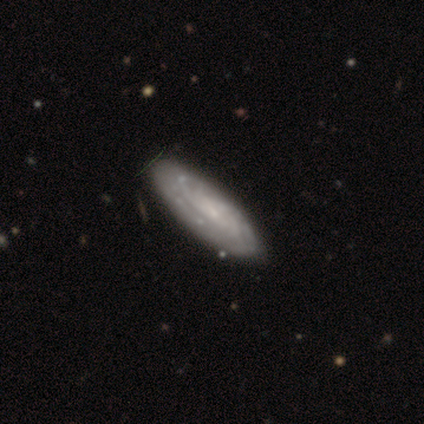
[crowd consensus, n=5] smooth-or-featured: featured or disk: 80% | smooth: 20% | star or artifact: 0%
  disk-edge-on: no: 100% | yes: 0%
    bar: no: 75% | weak: 25% | strong: 0%
    has-spiral-arms: yes: 100% | no: 0%
      spiral-winding: tight: 75% | medium: 25% | loose: 0%
      spiral-arm-count: can't tell: 75% | 3: 25% | 1: 0% | 2: 0% | 4: 0% | more than 4: 0%
    bulge-size: none: 50% | moderate: 25% | small: 25% | dominant: 0% | large: 0%
  merging: none: 100% | minor disturbance: 0% | major disturbance: 0% | merger: 0%